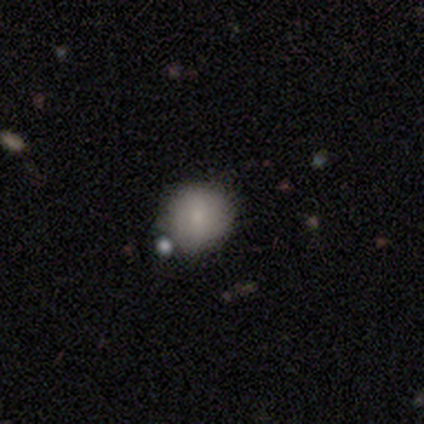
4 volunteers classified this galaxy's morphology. Overall: smooth (75%). How rounded: round (100%). Merging: none (67%; minor disturbance 33%).